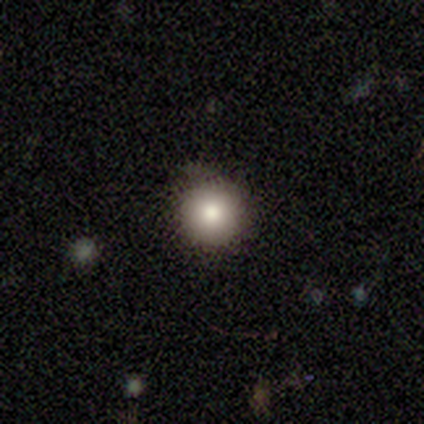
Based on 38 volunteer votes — Morphology: type=smooth (76%); roundness=round (93%); merging=none (86%).